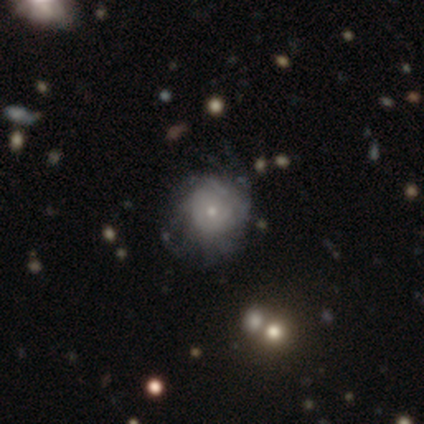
Smooth or featured?
  - smooth: 75% *
  - featured or disk: 25%
  - star or artifact: 0%
How rounded?
  - round: 100% *
  - in between: 0%
  - cigar-shaped: 0%
Merging?
  - none: 75% *
  - minor disturbance: 25%
  - major disturbance: 0%
  - merger: 0%